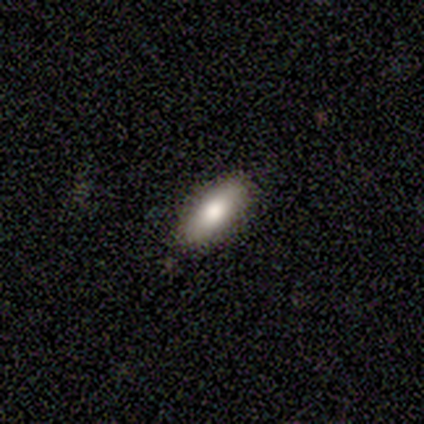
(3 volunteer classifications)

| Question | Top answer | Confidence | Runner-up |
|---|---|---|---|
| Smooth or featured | smooth | 100% | — |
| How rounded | cigar-shaped | 67% | in between (33%) |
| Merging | none | 100% | — |